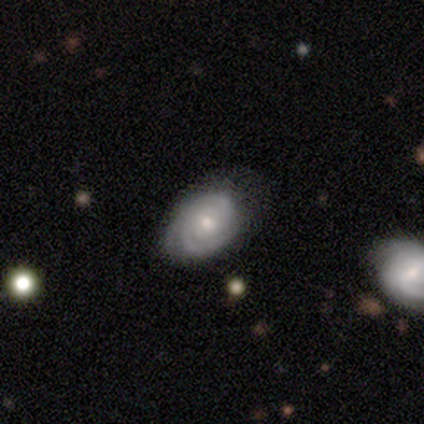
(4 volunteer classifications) Morphology: type=smooth (50%, tied with featured or disk); roundness=in between (100%); merging=none (75%).